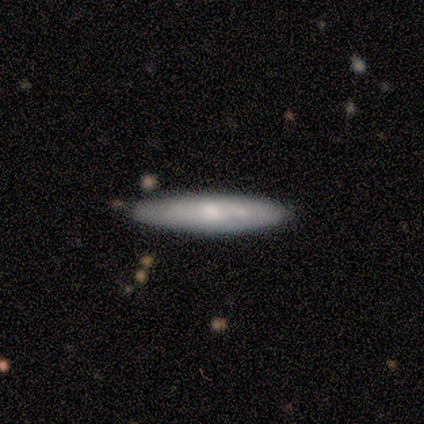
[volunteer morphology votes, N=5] This is clearly a smooth galaxy (80%). How rounded: likely cigar-shaped (75%). Merging: clearly none (80%).